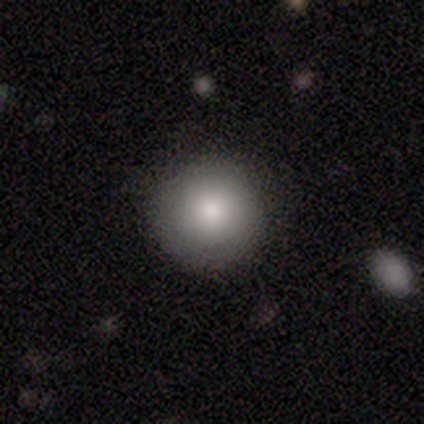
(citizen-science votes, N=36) Q: Smooth or featured?
A: smooth (92%); runner-up: featured or disk (6%)
Q: How rounded?
A: round (91%); runner-up: in between (6%)
Q: Merging?
A: none (89%); runner-up: minor disturbance (9%)